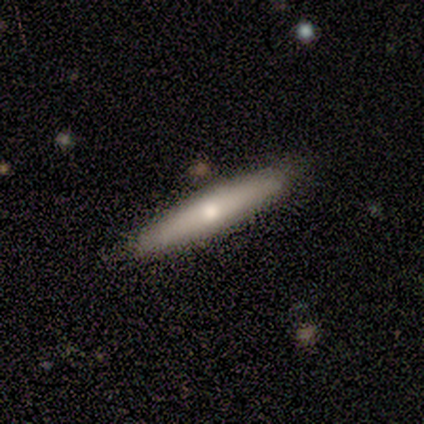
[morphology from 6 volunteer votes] Smooth or featured? 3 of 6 (50%, tied with featured or disk) said smooth. How rounded? 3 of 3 (100%) said cigar-shaped. Merging? 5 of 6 (83%) said none.